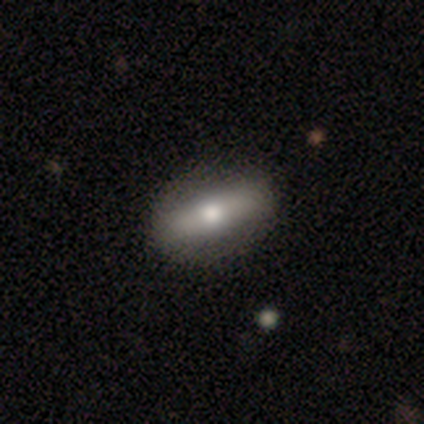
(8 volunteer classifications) A featured or disk galaxy (75%) viewed edge-on (50%, tied with no) with a rounded central bulge (67%). Merging: none (88%).